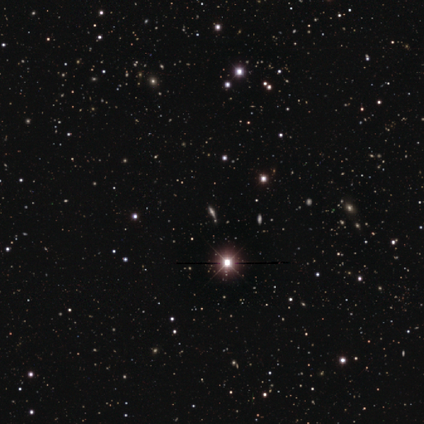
Morphology: type=star or artifact (80%).